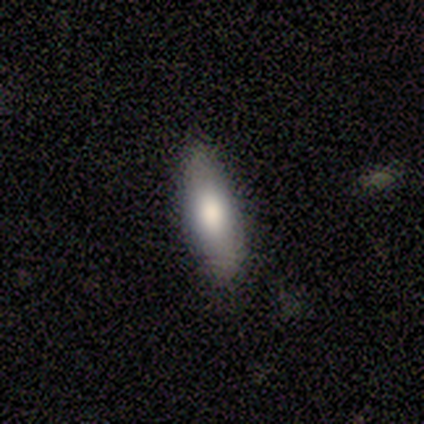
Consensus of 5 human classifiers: Smooth or featured? 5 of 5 (100%) said smooth. How rounded? 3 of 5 (60%) said in between. Merging? 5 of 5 (100%) said none.